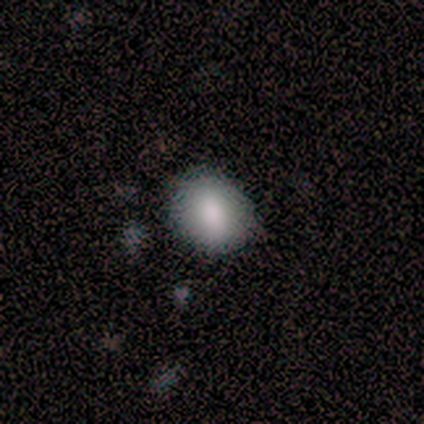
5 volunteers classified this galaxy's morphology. Volunteers were most divided on "how rounded": round: 80%, in between: 20%, cigar-shaped: 0%. More confident: smooth or featured — smooth (100%); merging — none (100%).